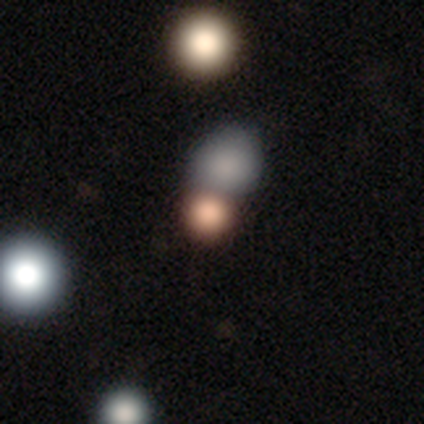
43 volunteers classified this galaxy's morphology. smooth 65%, star or artifact 26%, featured or disk 9%. Down the decision tree: how rounded — round (82%); merging — merger (50%).